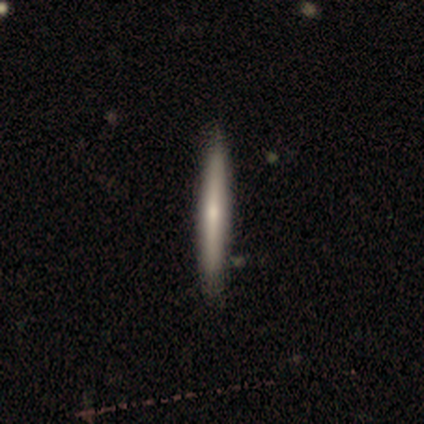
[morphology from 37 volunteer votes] type=smooth (49%); roundness=cigar-shaped (100%); merging=none (66%).